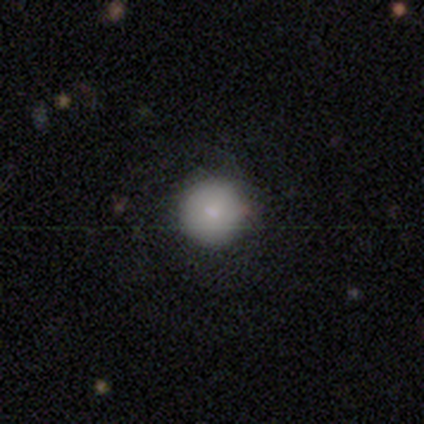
A smooth galaxy with no disk features (83%) that is round (100%).

Vote fractions:
- Smooth or featured? smooth: 83% / featured or disk: 17% / star or artifact: 0%
- How rounded? round: 100% / in between: 0% / cigar-shaped: 0%
- Merging? none: 83% / minor disturbance: 17% / major disturbance: 0% / merger: 0%